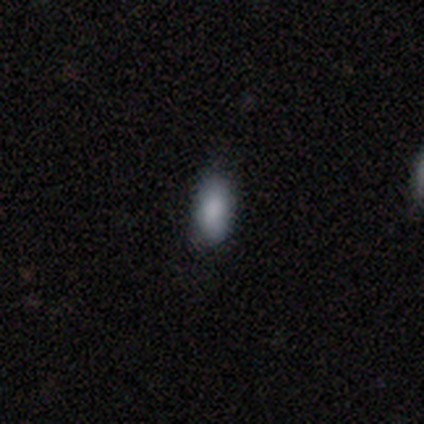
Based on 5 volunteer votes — Smooth or featured? smooth (100%)
How rounded? in between (80%)
Merging? none (80%)